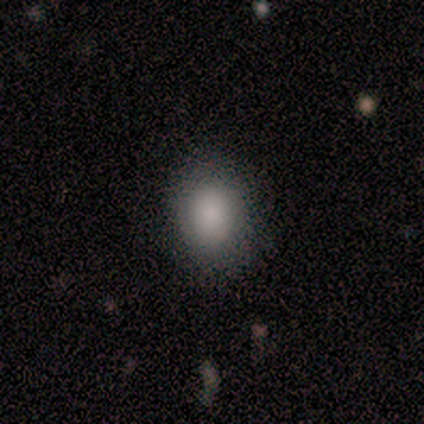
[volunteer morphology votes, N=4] smooth 75%, featured or disk 25%, star or artifact 0%. Down the decision tree: how rounded — round (100%); merging — none (75%).